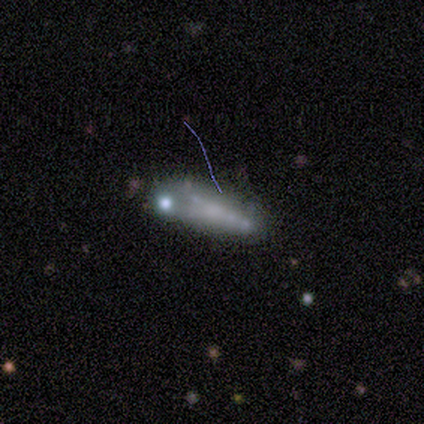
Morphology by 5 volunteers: Smooth or featured?
  - smooth: 60% *
  - featured or disk: 40%
  - star or artifact: 0%
How rounded?
  - cigar-shaped: 67% *
  - in between: 33%
  - round: 0%
Merging?
  - none: 80% *
  - merger: 20%
  - minor disturbance: 0%
  - major disturbance: 0%